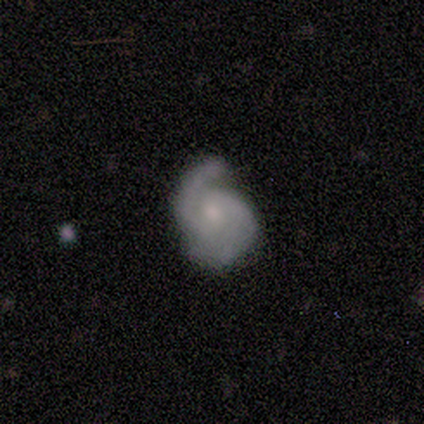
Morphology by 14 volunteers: Smooth or featured?
  - featured or disk: 86% *
  - smooth: 14%
  - star or artifact: 0%
Edge-on disk?
  - no: 100% *
  - yes: 0%
Bar?
  - no: 58% *
  - weak: 42%
  - strong: 0%
Spiral arms?
  - yes: 100% *
  - no: 0%
Spiral winding?
  - medium: 58% *
  - tight: 33%
  - loose: 8%
Spiral arm count?
  - 2: 83% *
  - 1: 8%
  - 3: 8%
  - 4: 0%
  - more than 4: 0%
  - can't tell: 0%
Bulge size?
  - small: 75% *
  - moderate: 25%
  - dominant: 0%
  - large: 0%
  - none: 0%
Merging?
  - none: 50% *
  - minor disturbance: 29%
  - major disturbance: 14%
  - merger: 7%